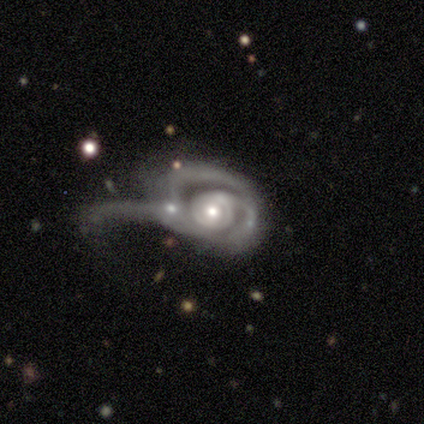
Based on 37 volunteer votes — Volunteers were most divided on "spiral arm count" (2-way tie): 2: 43%, can't tell: 43%, 1: 13%, 3: 0%, 4: 0%, more than 4: 0%. More confident: edge-on disk — no (100%); smooth or featured — featured or disk (92%); spiral arms — yes (88%); bar — no (62%); spiral winding — tight (60%); bulge size — moderate (53%); merging — major disturbance (51%).